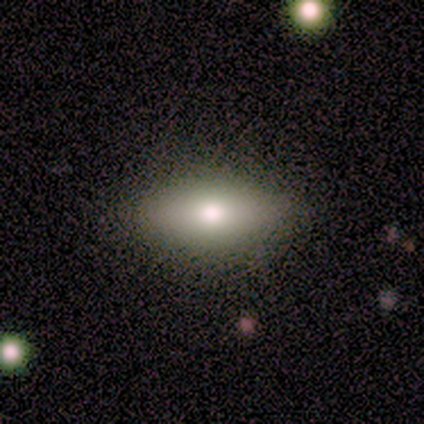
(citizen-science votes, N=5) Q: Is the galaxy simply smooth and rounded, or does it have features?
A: smooth — 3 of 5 (60%).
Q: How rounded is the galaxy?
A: in between — 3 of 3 (100%).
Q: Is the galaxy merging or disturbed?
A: none — 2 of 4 (50%).